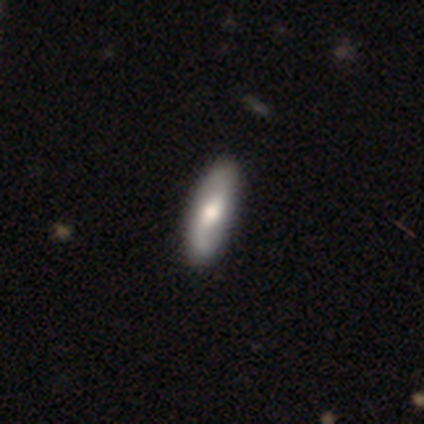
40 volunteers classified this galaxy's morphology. This appears to be a smooth galaxy with no disk features (55%) that is in between round and cigar-shaped (59%). Merging: none (70%).